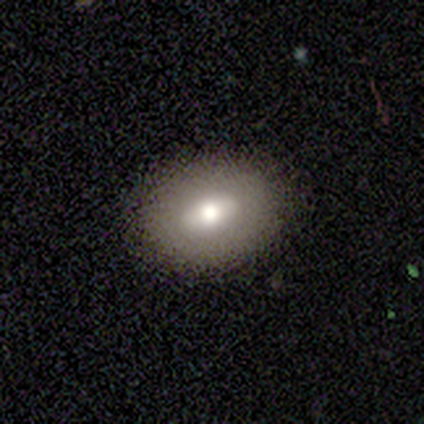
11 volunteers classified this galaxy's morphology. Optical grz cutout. It shows a smooth galaxy with no disk features (55%) that is in between round and cigar-shaped (67%). Merging: none (70%).